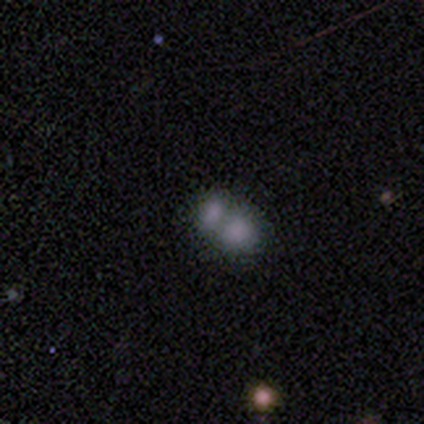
Smooth or featured: smooth — 80% (star or artifact — 20%)
How rounded: round — 75% (in between — 25%)
Merging: merger — 75% (minor disturbance — 25%)